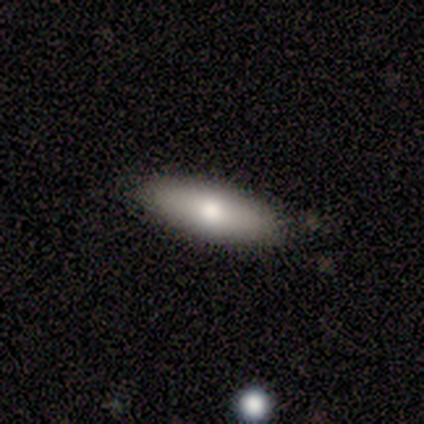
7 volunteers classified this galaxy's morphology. Q: Smooth or featured?
A: smooth (100%)
Q: How rounded?
A: in between (57%); runner-up: cigar-shaped (43%)
Q: Merging?
A: none (100%)